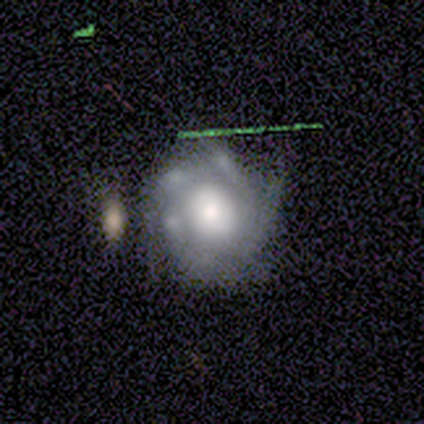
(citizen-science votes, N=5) featured or disk 60%, smooth 40%, star or artifact 0%. Down the decision tree: edge-on disk — no (100%); bar — no (67%); spiral arms — yes (100%); spiral arm count — can't tell (67%); spiral winding — tight (67%); bulge size — moderate (100%); merging — none (60%).